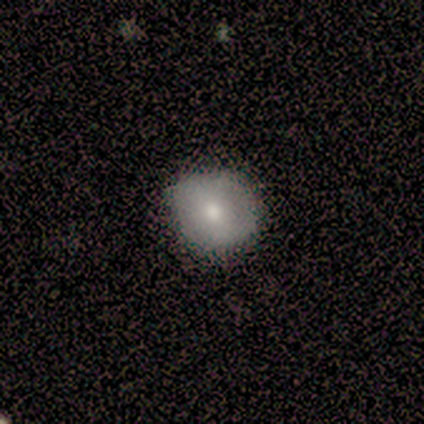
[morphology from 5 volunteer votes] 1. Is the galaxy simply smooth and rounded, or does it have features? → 80% smooth, 20% star or artifact, 0% featured or disk.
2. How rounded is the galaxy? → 100% round, 0% in between, 0% cigar-shaped.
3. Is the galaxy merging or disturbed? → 75% none, 25% minor disturbance, 0% major disturbance, 0% merger.